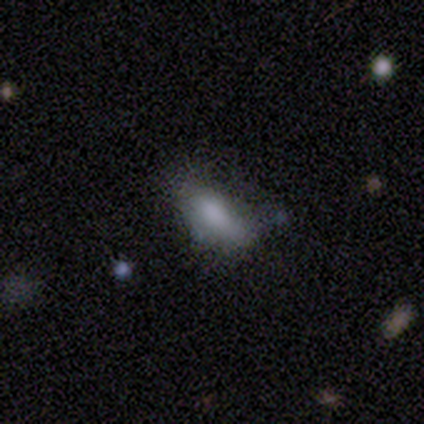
This is clearly a smooth galaxy (86%). How rounded: clearly in between (100%). Merging: marginally none (43%, tied with minor disturbance).